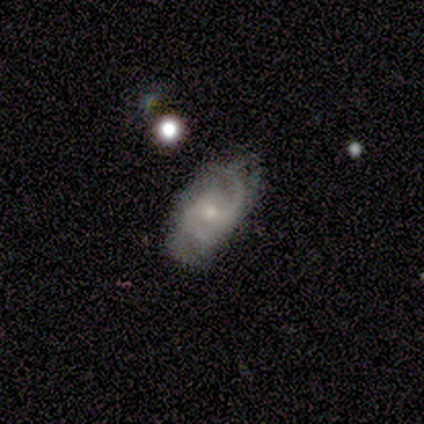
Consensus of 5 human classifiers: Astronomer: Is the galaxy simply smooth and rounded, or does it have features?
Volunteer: featured or disk — 60% (runner-up: smooth, 40%).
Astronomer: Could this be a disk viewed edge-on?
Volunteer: no — 100%.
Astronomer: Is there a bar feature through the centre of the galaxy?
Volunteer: no — 67%.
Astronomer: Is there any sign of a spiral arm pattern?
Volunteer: yes — 100%.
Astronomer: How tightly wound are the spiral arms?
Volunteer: medium — 67%.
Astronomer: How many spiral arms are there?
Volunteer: can't tell — 67%.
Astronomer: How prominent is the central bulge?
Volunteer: small — 100%.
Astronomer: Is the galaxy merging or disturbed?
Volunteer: minor disturbance — 60% (runner-up: none, 40%).